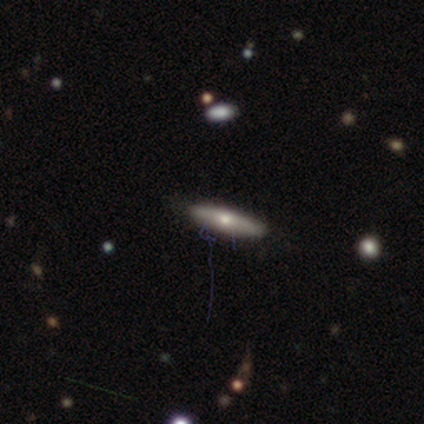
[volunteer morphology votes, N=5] This appears to be a smooth galaxy with no disk features (80%) that is cigar-shaped (100%). Merging: none (100%).